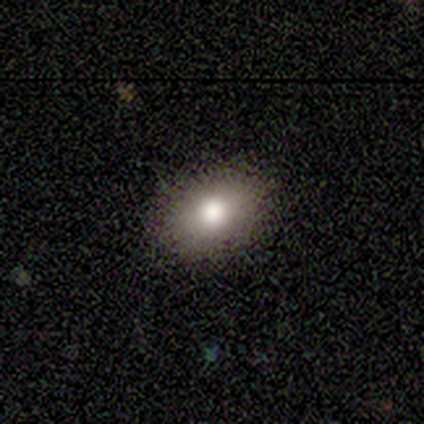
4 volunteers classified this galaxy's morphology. type=smooth (100%); roundness=in between (75%); merging=none (100%).